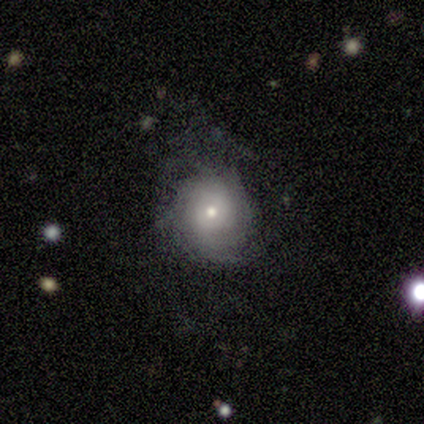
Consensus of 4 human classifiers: A smooth galaxy with no disk features (50%, tied with featured or disk) that is round (50%, tied with in between).

Vote fractions:
- Smooth or featured? smooth: 50% (tied) / featured or disk: 50% (tied) / star or artifact: 0%
- How rounded? round: 50% (tied) / in between: 50% (tied) / cigar-shaped: 0%
- Merging? none: 50% / minor disturbance: 25% / major disturbance: 25% / merger: 0%